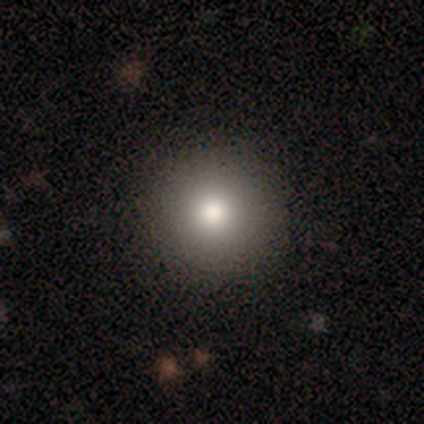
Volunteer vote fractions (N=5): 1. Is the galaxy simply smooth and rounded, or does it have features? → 100% smooth, 0% featured or disk, 0% star or artifact.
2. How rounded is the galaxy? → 100% round, 0% in between, 0% cigar-shaped.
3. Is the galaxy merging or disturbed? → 100% none, 0% minor disturbance, 0% major disturbance, 0% merger.